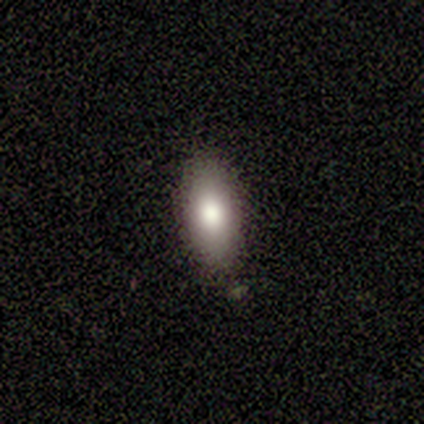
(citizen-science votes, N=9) A smooth galaxy with no disk features (100%) that is in between round and cigar-shaped (89%). Merging: none (67%).